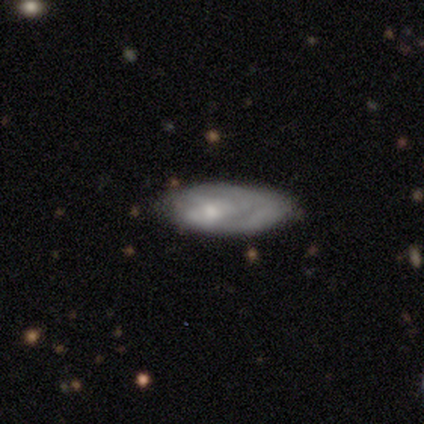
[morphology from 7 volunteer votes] Smooth or featured: featured or disk — 100%
Edge-on disk: no — 86% (yes — 14%)
Bar: no — 67% (weak — 33%)
Spiral arms: yes — 67% (no — 33%)
Spiral winding: medium — 50% (tight — 25%)
Spiral arm count: can't tell — 50% (1 — 25%)
Bulge size: moderate — 33% (tied with small — 33%; none — 33%)
Merging: major disturbance — 43% (none — 29%)